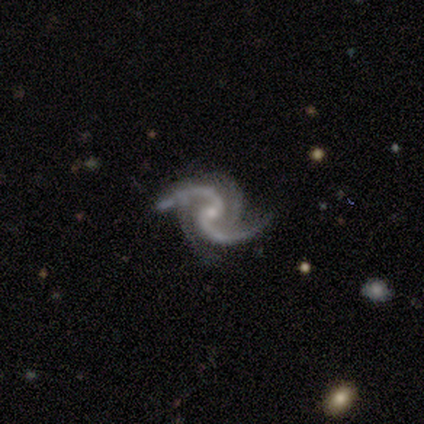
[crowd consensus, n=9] Smooth or featured?
  - featured or disk: 100% *
  - smooth: 0%
  - star or artifact: 0%
Edge-on disk?
  - no: 100% *
  - yes: 0%
Bar?
  - no: 89% *
  - weak: 11%
  - strong: 0%
Spiral arms?
  - yes: 100% *
  - no: 0%
Spiral winding?
  - loose: 56% *
  - medium: 44%
  - tight: 0%
Spiral arm count?
  - 2: 100% *
  - 1: 0%
  - 3: 0%
  - 4: 0%
  - more than 4: 0%
  - can't tell: 0%
Bulge size?
  - small: 78% *
  - moderate: 22%
  - dominant: 0%
  - large: 0%
  - none: 0%
Merging?
  - none: 67% *
  - minor disturbance: 22%
  - major disturbance: 11%
  - merger: 0%